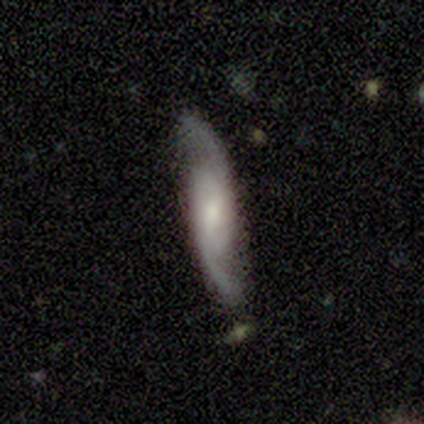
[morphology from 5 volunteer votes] This is clearly a featured or disk galaxy (80%). It is clearly not viewed edge-on (100%). Bar: possibly weak (50%). Spiral arm pattern: clearly yes (100%). Spiral arm count: clearly 2 (100%). Spiral winding: possibly tight (50%). Central bulge: possibly moderate (50%, tied with small). Merging: likely none (75%).